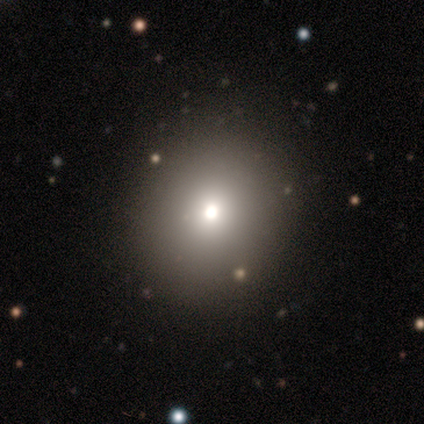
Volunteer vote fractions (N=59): Overall: smooth (75%). How rounded: round (80%). Merging: none (57%).